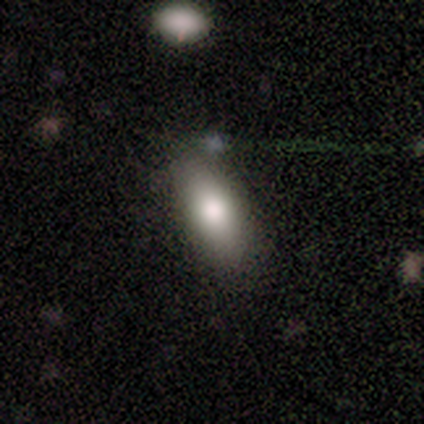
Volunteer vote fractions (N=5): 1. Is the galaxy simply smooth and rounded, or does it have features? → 100% smooth, 0% featured or disk, 0% star or artifact.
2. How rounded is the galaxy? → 80% in between, 20% cigar-shaped, 0% round.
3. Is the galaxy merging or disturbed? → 80% none, 20% merger, 0% minor disturbance, 0% major disturbance.